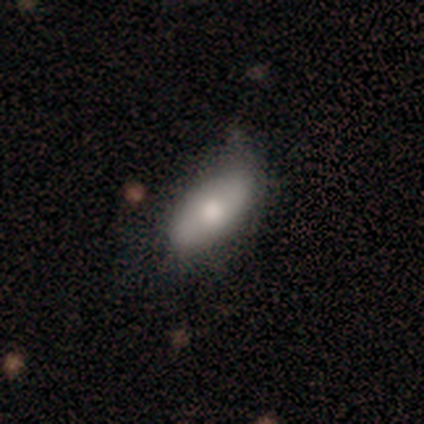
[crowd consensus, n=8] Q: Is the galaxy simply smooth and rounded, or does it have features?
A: smooth — 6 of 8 (75%).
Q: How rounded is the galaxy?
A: in between — 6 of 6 (100%).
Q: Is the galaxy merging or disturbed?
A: none — 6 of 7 (86%).